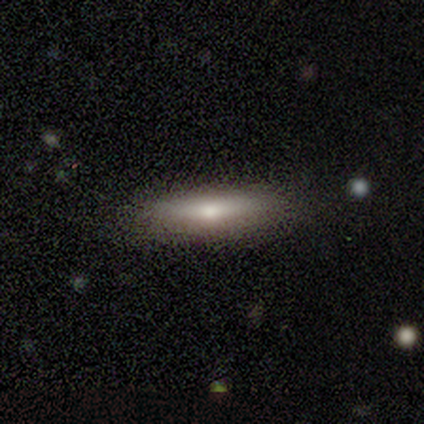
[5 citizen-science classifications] A featured or disk galaxy (80%) viewed edge-on (50%, tied with no) with a rounded central bulge (100%). Merging: none (80%).